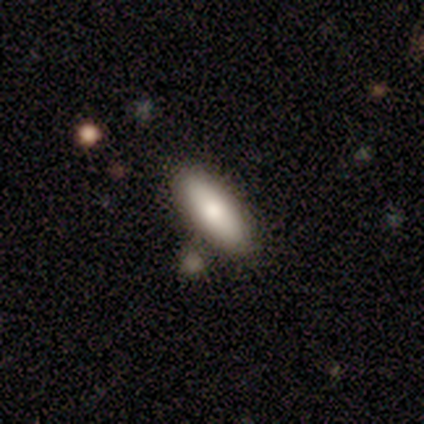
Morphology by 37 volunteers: smooth 81%, featured or disk 14%, star or artifact 5%. Down the decision tree: how rounded — in between (67%); merging — none (86%).